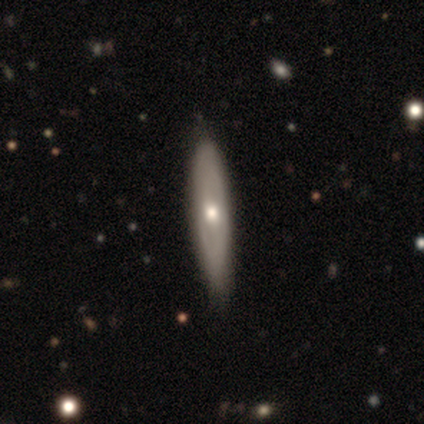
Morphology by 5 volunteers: Volunteers were most divided on "how rounded": cigar-shaped: 80%, in between: 20%, round: 0%. More confident: smooth or featured — smooth (100%); merging — none (80%).